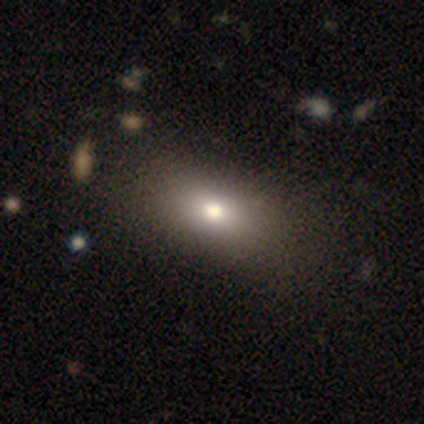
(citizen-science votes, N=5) smooth-or-featured: smooth: 80% | featured or disk: 20% | star or artifact: 0%
  how-rounded: in between: 100% | round: 0% | cigar-shaped: 0%
  merging: none: 100% | minor disturbance: 0% | major disturbance: 0% | merger: 0%